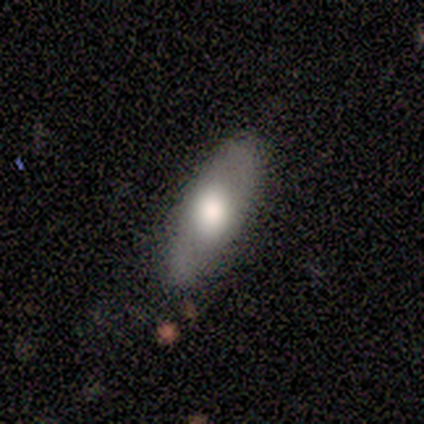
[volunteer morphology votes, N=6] This appears to be a smooth galaxy with no disk features (50%, tied with featured or disk) that is in between round and cigar-shaped (100%). Merging: none (83%).